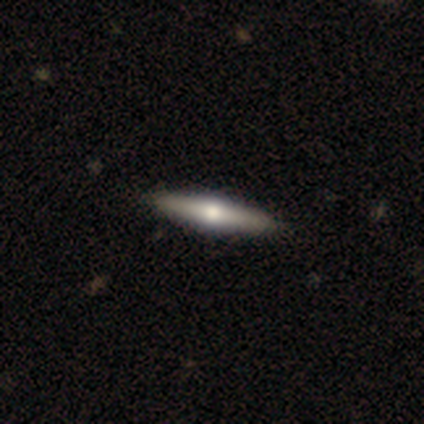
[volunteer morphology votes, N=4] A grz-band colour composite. It shows a featured or disk galaxy (75%) viewed edge-on (100%) with a rounded central bulge (67%). Merging: none (100%).